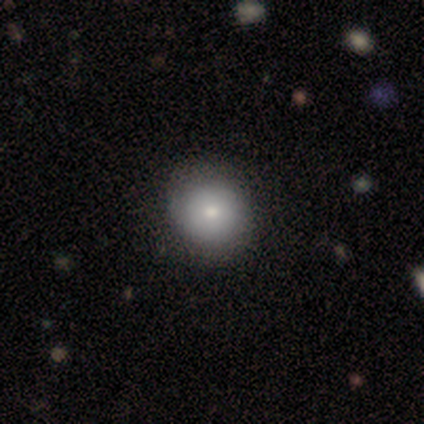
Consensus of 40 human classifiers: smooth_or_featured: smooth (p=0.85) [alt: featured or disk p=0.12]
how_rounded: round (p=0.85) [alt: in between p=0.15]
merging: none (p=0.69) [alt: minor disturbance p=0.05]